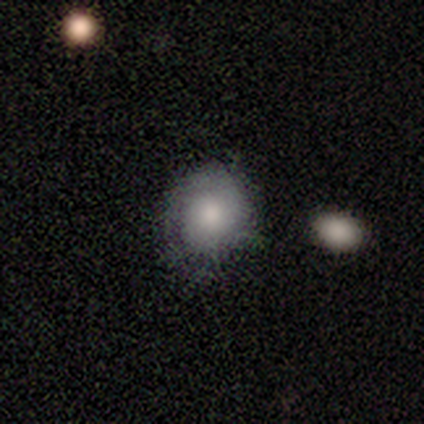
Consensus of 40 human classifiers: A smooth galaxy with no disk features (72%) that is round (79%). Merging: none (68%).